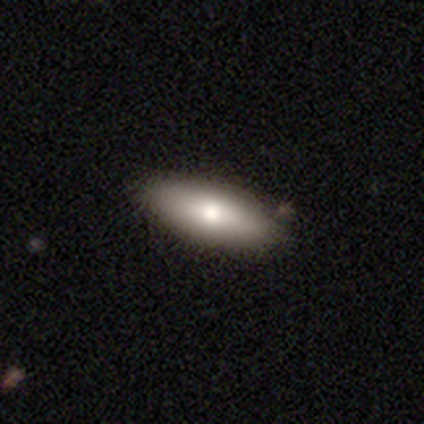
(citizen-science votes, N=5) A smooth galaxy with no disk features (60%) that is in between round and cigar-shaped (100%).

Vote fractions:
- Smooth or featured? smooth: 60% / featured or disk: 40% / star or artifact: 0%
- How rounded? in between: 100% / round: 0% / cigar-shaped: 0%
- Merging? none: 60% / minor disturbance: 40% / major disturbance: 0% / merger: 0%